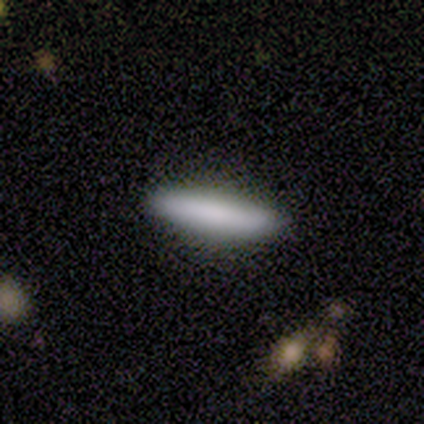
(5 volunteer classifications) This appears to be a smooth galaxy with no disk features (100%) that is cigar-shaped (80%). Merging: none (100%).